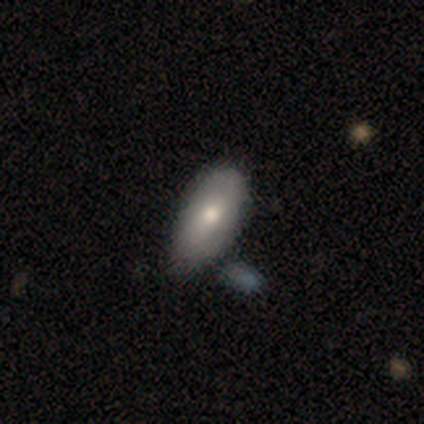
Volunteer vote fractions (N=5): Smooth or featured? smooth (60%)
How rounded? in between (100%)
Merging? none (40%)